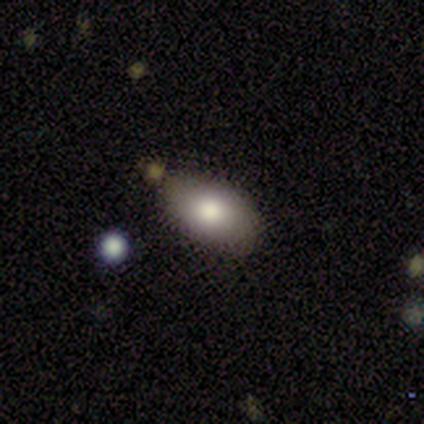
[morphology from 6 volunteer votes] smooth_or_featured: smooth (p=0.83) [alt: featured or disk p=0.17]
how_rounded: in between (p=1.00)
merging: none (p=0.67) [alt: minor disturbance p=0.33]